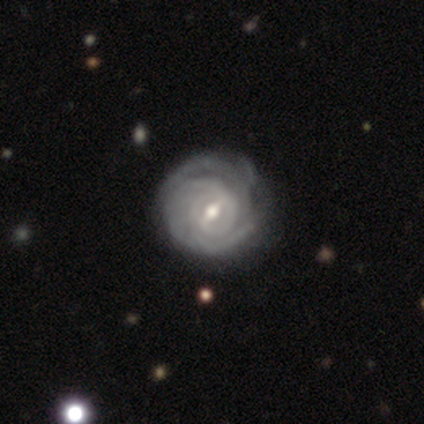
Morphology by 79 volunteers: This is clearly a featured or disk galaxy (87%). It is clearly not viewed edge-on (99%). Bar: possibly weak (54%). Spiral arm pattern: clearly yes (100%). Spiral arm count: marginally can't tell (32%). Spiral winding: clearly tight (90%). Central bulge: likely moderate (68%). Merging: marginally none (35%).